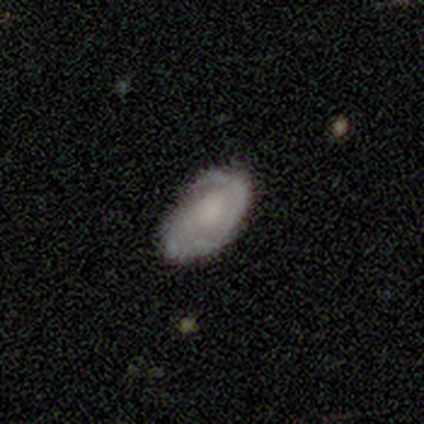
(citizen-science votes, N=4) featured or disk 75%, smooth 25%, star or artifact 0%. Down the decision tree: edge-on disk — no (100%); bar — no (100%); spiral arms — yes (100%); spiral arm count — 2 (67%); spiral winding — tight (67%); bulge size — none (67%); merging — none (100%).